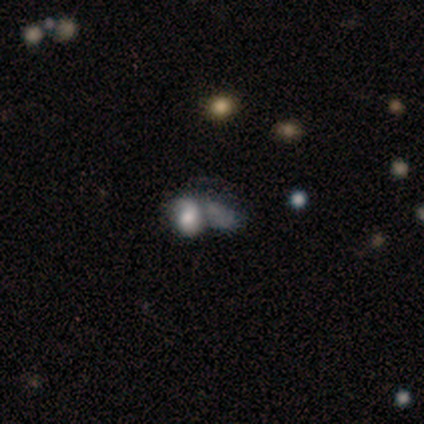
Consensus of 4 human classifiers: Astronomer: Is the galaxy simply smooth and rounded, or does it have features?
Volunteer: featured or disk — 50%, tied with star or artifact at 50%.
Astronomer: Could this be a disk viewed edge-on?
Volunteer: no — 100%.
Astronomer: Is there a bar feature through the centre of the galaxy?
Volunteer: weak — 50%, tied with no at 50%.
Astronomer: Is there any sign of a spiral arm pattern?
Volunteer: yes — 50%, tied with no at 50%.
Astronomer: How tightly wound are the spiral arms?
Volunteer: loose — 100%.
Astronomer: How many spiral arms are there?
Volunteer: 1 — 100%.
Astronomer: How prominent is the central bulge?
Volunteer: large — 50%, tied with moderate at 50%.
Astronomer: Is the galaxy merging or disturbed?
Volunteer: merger — 100%.